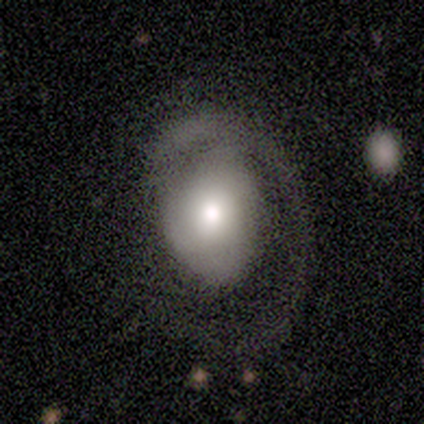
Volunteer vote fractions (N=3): This is likely a smooth galaxy (67%). How rounded: possibly in between (50%, tied with cigar-shaped). Merging: likely none (67%).